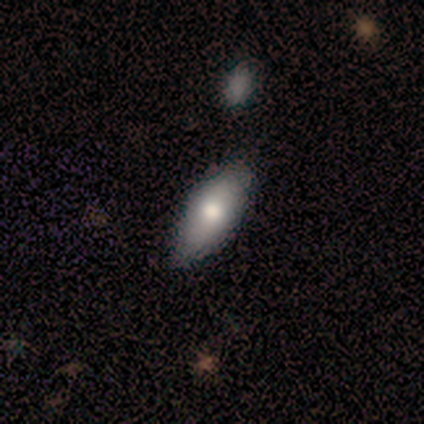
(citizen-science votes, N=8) Volunteers were most divided on "smooth or featured": smooth: 88%, featured or disk: 12%, star or artifact: 0%. More confident: how rounded — in between (100%); merging — none (88%).